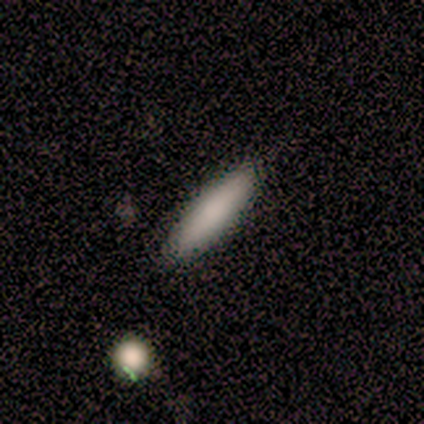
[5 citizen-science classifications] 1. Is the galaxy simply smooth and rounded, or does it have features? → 100% smooth, 0% featured or disk, 0% star or artifact.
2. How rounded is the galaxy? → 60% cigar-shaped, 40% in between, 0% round.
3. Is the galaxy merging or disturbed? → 100% none, 0% minor disturbance, 0% major disturbance, 0% merger.